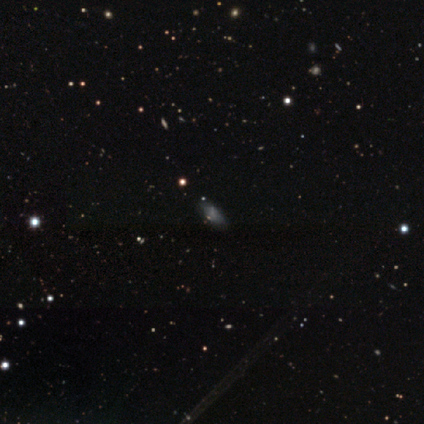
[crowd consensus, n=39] smooth_or_featured: smooth (p=0.51) [alt: star or artifact p=0.28]
how_rounded: in between (p=0.85) [alt: round p=0.15]
merging: none (p=0.68) [alt: minor disturbance p=0.18]